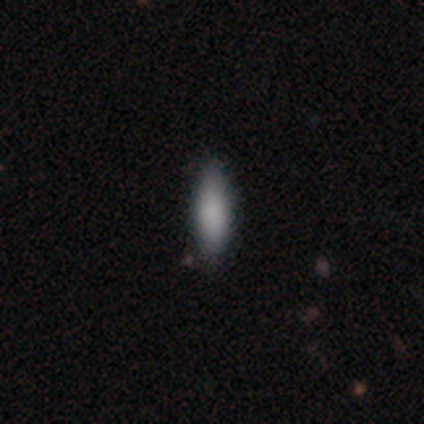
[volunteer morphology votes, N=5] Smooth or featured? smooth (100%)
How rounded? in between (80%)
Merging? none (100%)